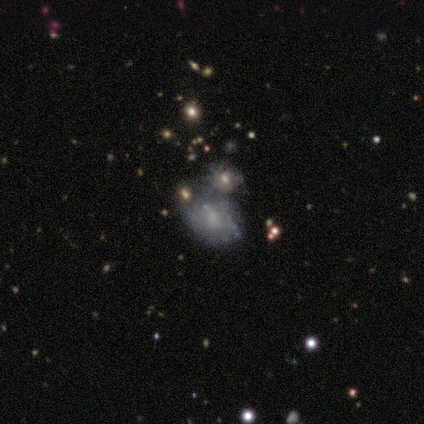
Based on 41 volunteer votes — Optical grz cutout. It shows a featured or disk galaxy (61%) with no bar (68%), no spiral arms (68%) and a small central bulge (48%). Merging: merger (38%).